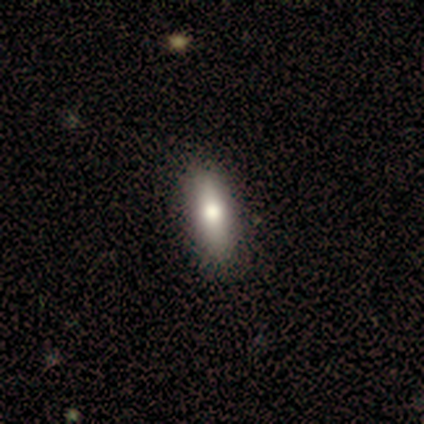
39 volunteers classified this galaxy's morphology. A smooth galaxy with no disk features (69%) that is in between round and cigar-shaped (74%).

Vote fractions:
- Smooth or featured? smooth: 69% / featured or disk: 23% / star or artifact: 8%
- How rounded? in between: 74% / cigar-shaped: 19% / round: 7%
- Merging? none: 86% / minor disturbance: 11% / major disturbance: 3% / merger: 0%